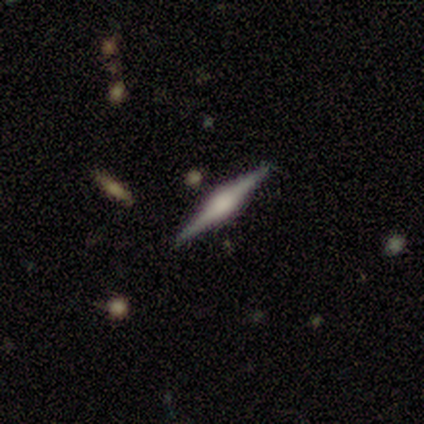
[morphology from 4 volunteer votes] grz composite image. It shows a featured or disk galaxy (100%) viewed edge-on (100%) with a rounded central bulge (75%). Merging: none (100%).